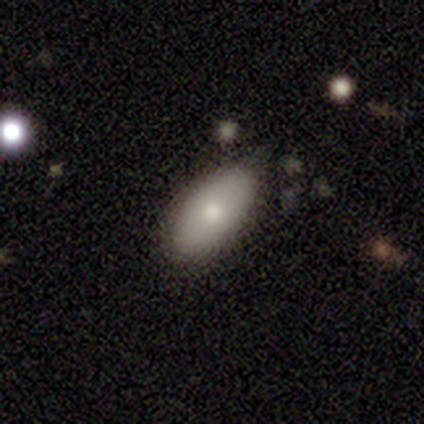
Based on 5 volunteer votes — A smooth galaxy with no disk features (100%) that is in between round and cigar-shaped (100%). Merging: none (100%).